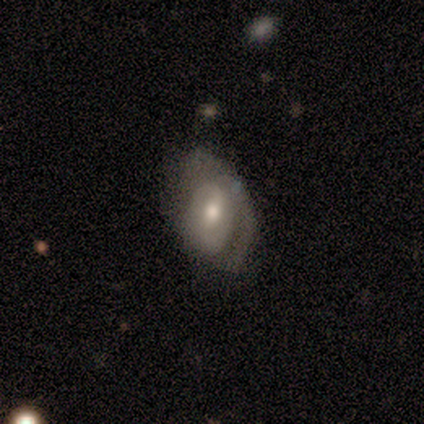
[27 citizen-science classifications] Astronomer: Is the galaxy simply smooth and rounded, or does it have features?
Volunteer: featured or disk — 81%.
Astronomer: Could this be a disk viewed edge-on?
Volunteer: no — 95%.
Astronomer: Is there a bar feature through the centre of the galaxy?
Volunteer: weak — 48% (runner-up: no, 38%).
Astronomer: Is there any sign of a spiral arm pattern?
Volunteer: yes — 71%.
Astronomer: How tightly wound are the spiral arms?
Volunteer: tight — 53% (runner-up: medium, 47%).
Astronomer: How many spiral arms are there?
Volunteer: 1 — 40%, tied with 2 at 40%.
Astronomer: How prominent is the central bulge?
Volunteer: moderate — 71%.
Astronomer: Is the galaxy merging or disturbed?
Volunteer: none — 50%, tied with minor disturbance at 50%.